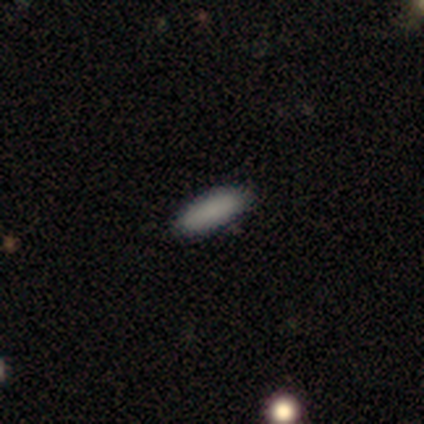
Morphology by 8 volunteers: Smooth or featured: smooth — 100%
How rounded: in between — 75% (cigar-shaped — 25%)
Merging: none — 100%